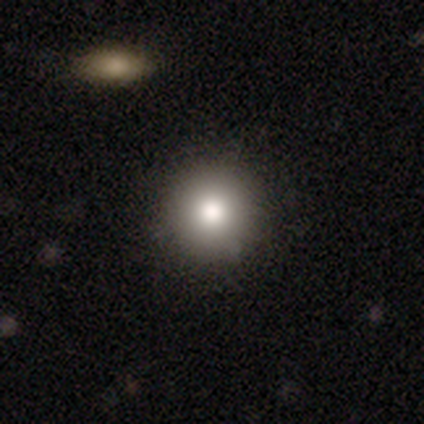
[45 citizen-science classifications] A smooth galaxy with no disk features (78%) that is round (100%).

Vote fractions:
- Smooth or featured? smooth: 78% / featured or disk: 11% / star or artifact: 11%
- How rounded? round: 100% / in between: 0% / cigar-shaped: 0%
- Merging? none: 88% / merger: 8% / minor disturbance: 5% / major disturbance: 0%